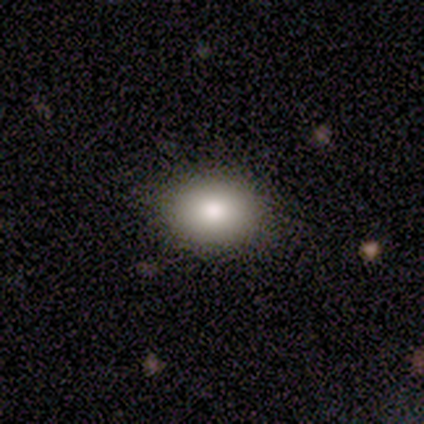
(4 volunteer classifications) smooth 100%, featured or disk 0%, star or artifact 0%. Down the decision tree: how rounded — in between (75%); merging — none (100%).